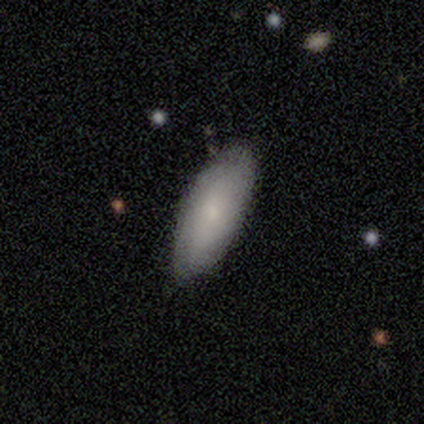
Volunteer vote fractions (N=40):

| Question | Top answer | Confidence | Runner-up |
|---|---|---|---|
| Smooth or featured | smooth | 72% | featured or disk (20%) |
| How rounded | in between | 86% | cigar-shaped (14%) |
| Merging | none | 89% | minor disturbance (8%) |